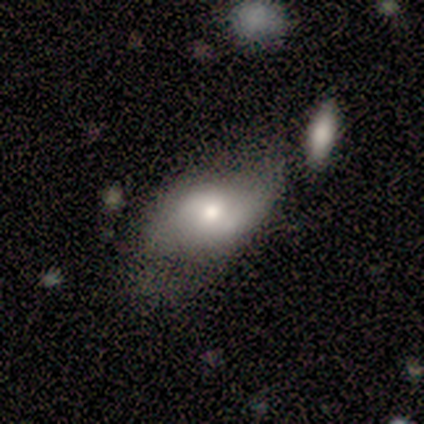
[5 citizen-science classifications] This is likely a smooth galaxy (60%). How rounded: clearly in between (100%). Merging: possibly minor disturbance (50%).